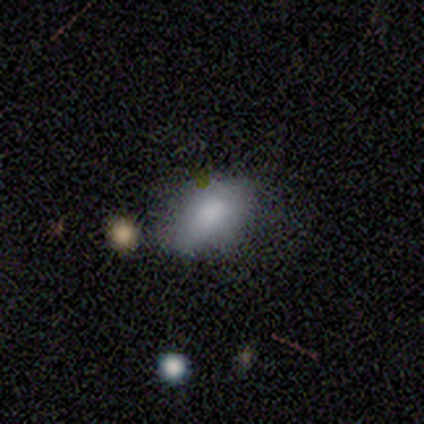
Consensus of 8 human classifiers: smooth_or_featured: smooth (p=1.00)
how_rounded: in between (p=0.88) [alt: round p=0.12]
merging: none (p=0.88) [alt: minor disturbance p=0.12]